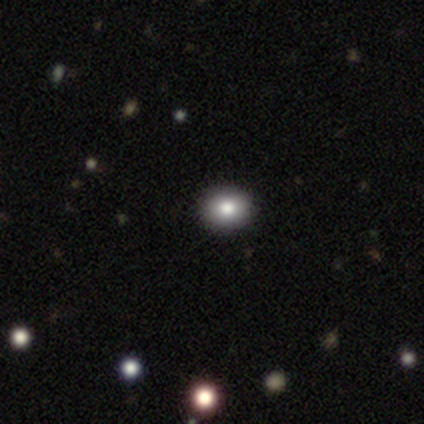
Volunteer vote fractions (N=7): Q: Smooth or featured?
A: smooth (43%); tied with: star or artifact (43%)
Q: How rounded?
A: round (67%); runner-up: in between (33%)
Q: Merging?
A: none (75%); runner-up: minor disturbance (25%)